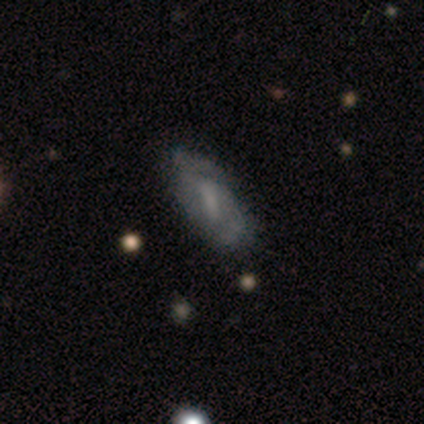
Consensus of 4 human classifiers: Overall: featured or disk (100%). Edge-on disk: no (75%). Bar: strong (33%, tied with weak and no). Spiral arms: yes (67%; no 33%). Spiral arm count: can't tell (100%). Spiral winding: tight (100%). Bulge size: none (100%). Merging: none (75%).